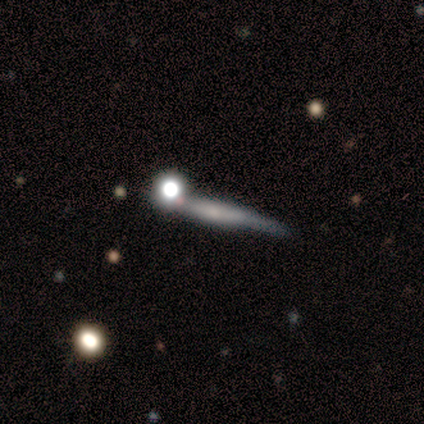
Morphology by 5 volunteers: A featured or disk galaxy (60%) viewed edge-on (67%) with a boxy central bulge (50%, tied with none).

Vote fractions:
- Smooth or featured? featured or disk: 60% / smooth: 40% / star or artifact: 0%
- Edge-on disk? yes: 67% / no: 33%
- Edge-on bulge? boxy: 50% (tied) / none: 50% (tied) / rounded: 0%
- Merging? minor disturbance: 40% / none: 20% / major disturbance: 20% / merger: 20%